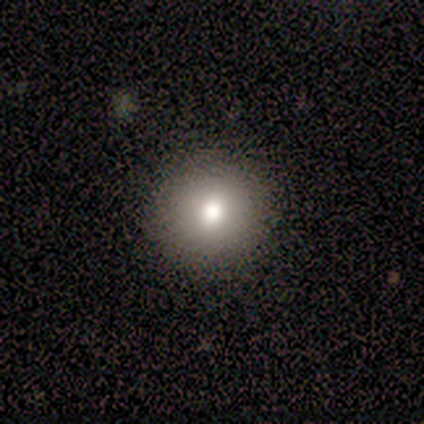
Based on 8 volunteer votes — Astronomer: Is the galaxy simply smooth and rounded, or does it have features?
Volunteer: smooth — 88%.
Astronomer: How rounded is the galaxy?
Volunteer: round — 100%.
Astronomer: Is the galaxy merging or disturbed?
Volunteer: none — 100%.